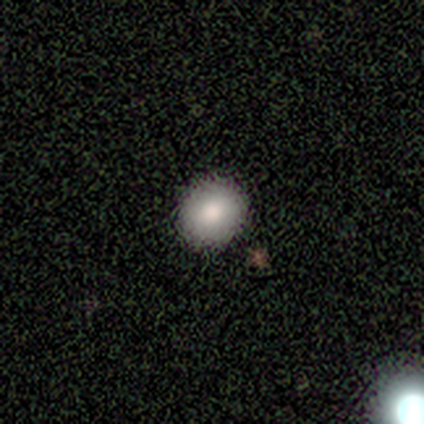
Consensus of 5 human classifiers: Smooth or featured: smooth — 100%
How rounded: round — 100%
Merging: none — 100%